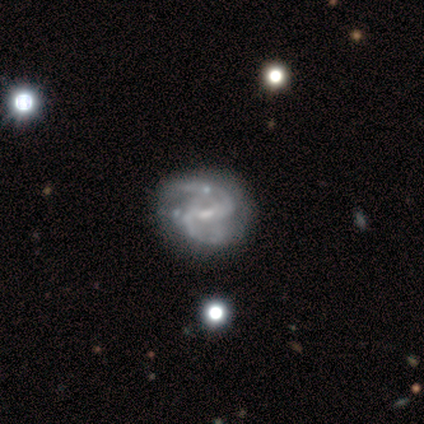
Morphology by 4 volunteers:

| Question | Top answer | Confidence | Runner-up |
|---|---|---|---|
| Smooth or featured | featured or disk | 100% | — |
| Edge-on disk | no | 100% | — |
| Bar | weak | 100% | — |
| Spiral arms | yes | 100% | — |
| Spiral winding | tight | 50% | tied: medium (50%) |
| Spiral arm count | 2 | 50% | tied: can't tell (50%) |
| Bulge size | none | 100% | — |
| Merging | major disturbance | 50% | none (25%) |